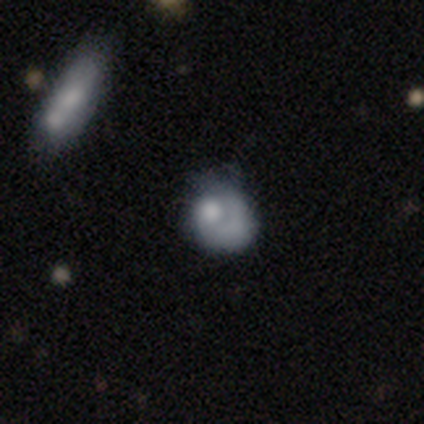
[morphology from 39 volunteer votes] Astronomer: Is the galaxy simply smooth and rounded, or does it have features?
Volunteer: smooth — 46% (runner-up: featured or disk, 41%).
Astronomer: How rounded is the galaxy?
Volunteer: round — 50%, tied with in between at 50%.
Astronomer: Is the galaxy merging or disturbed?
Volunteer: none — 44% (runner-up: minor disturbance, 26%).